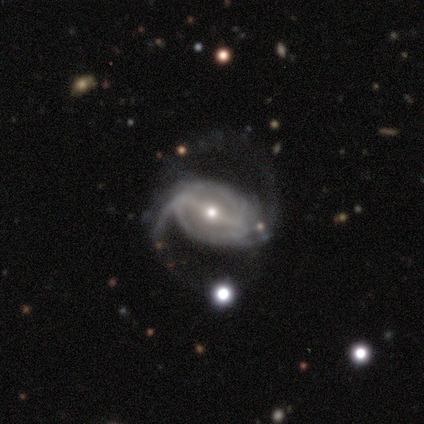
Q: Smooth or featured?
A: featured or disk (80%); runner-up: smooth (20%)
Q: Edge-on disk?
A: no (100%)
Q: Bar?
A: weak (75%); runner-up: strong (25%)
Q: Spiral arms?
A: yes (75%); runner-up: no (25%)
Q: Spiral winding?
A: medium (67%); runner-up: loose (33%)
Q: Spiral arm count?
A: 2 (67%); runner-up: can't tell (33%)
Q: Bulge size?
A: moderate (50%); tied with: small (50%)
Q: Merging?
A: minor disturbance (40%); tied with: major disturbance (40%)